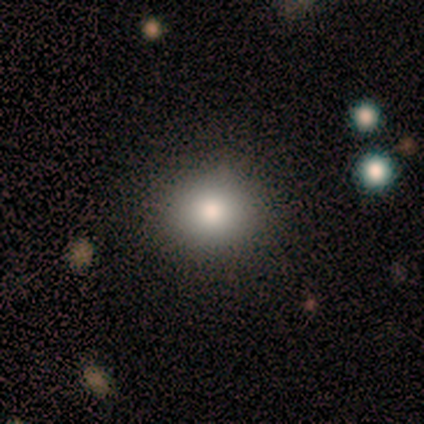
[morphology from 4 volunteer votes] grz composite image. It shows a smooth galaxy with no disk features (100%) that is round (75%). Merging: none (50%, tied with major disturbance).